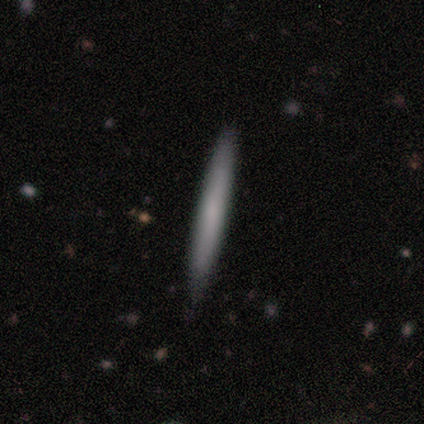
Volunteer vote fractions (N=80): Smooth or featured? smooth (72%)
How rounded? cigar-shaped (97%)
Merging? none (42%)